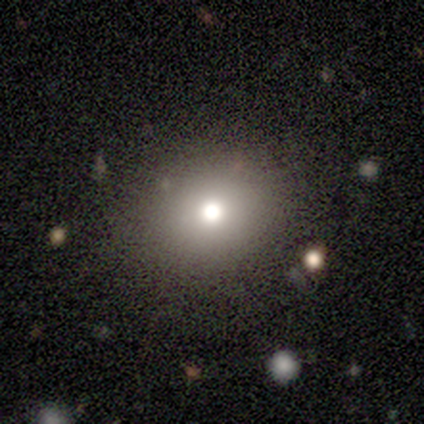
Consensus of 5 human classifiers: Smooth or featured? smooth (60%)
How rounded? round (100%)
Merging? none (100%)